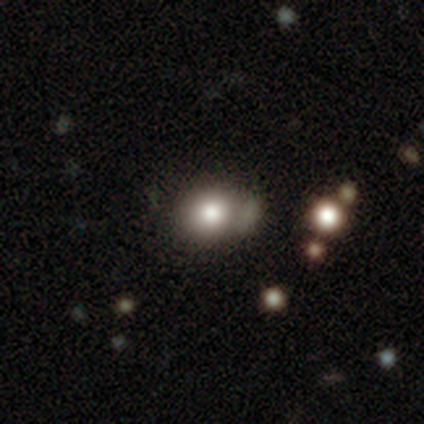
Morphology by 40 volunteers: Smooth or featured?
  - smooth: 70% *
  - star or artifact: 18%
  - featured or disk: 12%
How rounded?
  - round: 75% *
  - in between: 25%
  - cigar-shaped: 0%
Merging?
  - none: 48% *
  - minor disturbance: 24%
  - merger: 24%
  - major disturbance: 3%